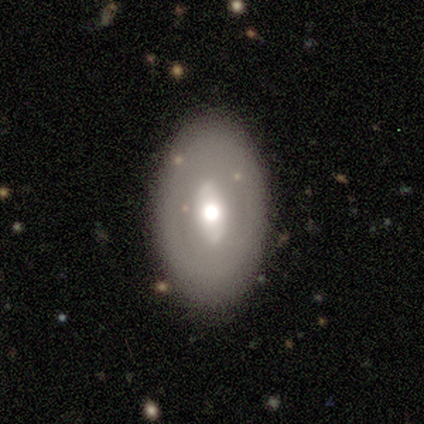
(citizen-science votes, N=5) Morphology: type=featured or disk (60%); edge-on=no (100%); bar=no (67%); spiral arms=no (100%); bulge=moderate (100%); merging=none (75%).